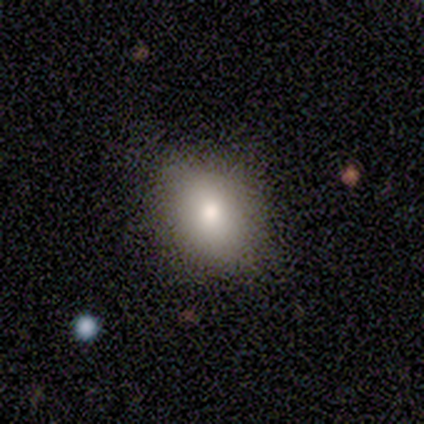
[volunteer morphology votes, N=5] Volunteers were most divided on "how rounded" (2-way tie): round: 50%, in between: 50%, cigar-shaped: 0%. More confident: smooth or featured — smooth (80%); merging — none (80%).